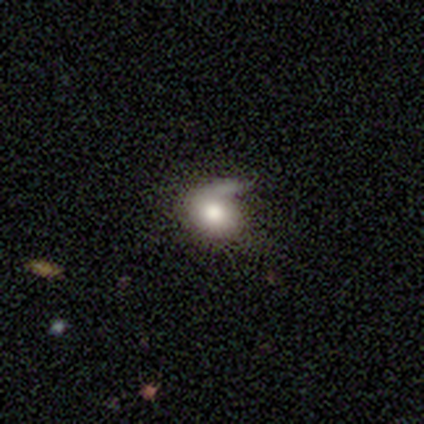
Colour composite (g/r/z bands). It shows a smooth galaxy with no disk features (60%) that is round (67%). Merging: none (40%).